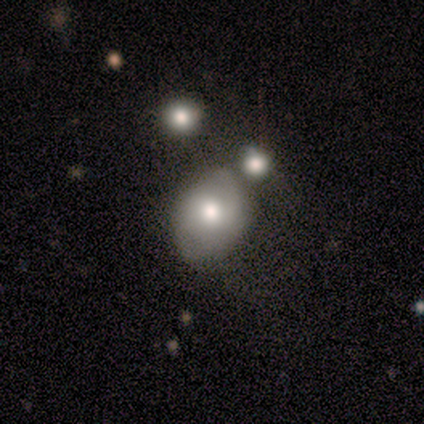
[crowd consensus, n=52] A smooth galaxy with no disk features (56%) that is in between round and cigar-shaped (79%). Merging: none (50%).